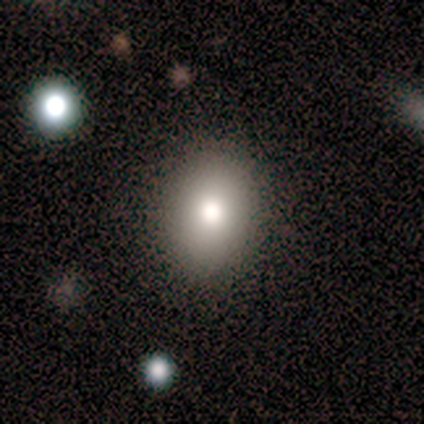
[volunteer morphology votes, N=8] Q: Smooth or featured?
A: smooth (75%); runner-up: featured or disk (12%)
Q: How rounded?
A: round (50%); tied with: in between (50%)
Q: Merging?
A: none (86%); runner-up: minor disturbance (14%)